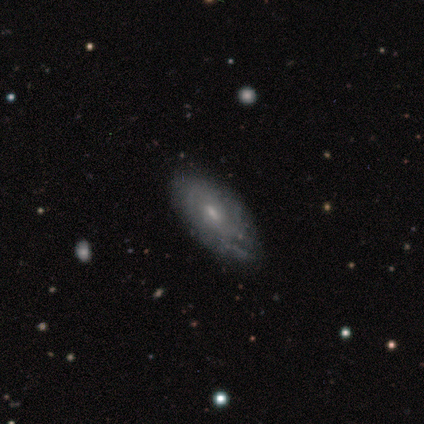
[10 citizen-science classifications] Smooth or featured: featured or disk — 80% (smooth — 20%)
Edge-on disk: no — 75% (yes — 25%)
Bar: no — 83% (weak — 17%)
Spiral arms: yes — 100%
Spiral winding: tight — 67% (medium — 33%)
Spiral arm count: can't tell — 50% (3 — 33%)
Bulge size: moderate — 50% (small — 33%)
Merging: none — 70% (minor disturbance — 30%)